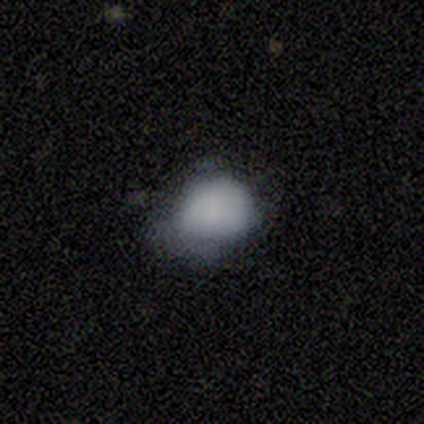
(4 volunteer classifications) Smooth or featured? 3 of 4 (75%) said smooth. How rounded? 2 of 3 (67%) said round. Merging? 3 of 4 (75%) said major disturbance.